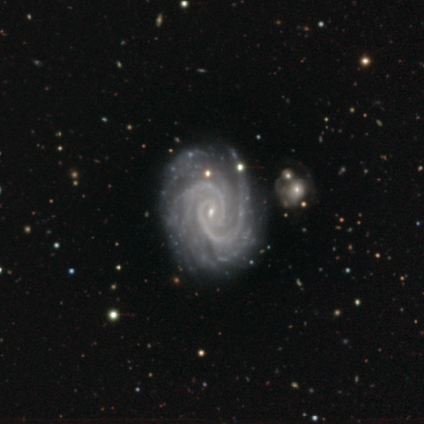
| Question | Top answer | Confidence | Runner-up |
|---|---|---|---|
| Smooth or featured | featured or disk | 97% | star or artifact (3%) |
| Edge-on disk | no | 97% | yes (3%) |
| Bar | no | 61% | weak (36%) |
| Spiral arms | yes | 100% | — |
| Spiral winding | tight | 69% | medium (31%) |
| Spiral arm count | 2 | 55% | can't tell (15%) |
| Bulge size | small | 95% | moderate (3%) |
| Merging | none | 38% | merger (13%) |